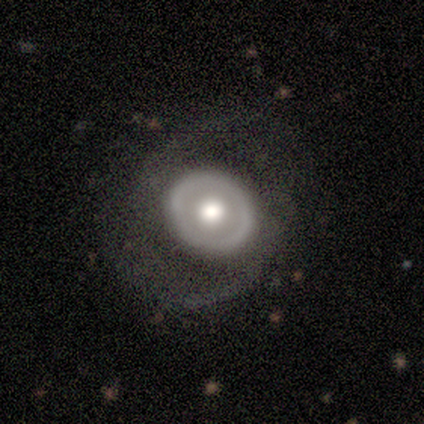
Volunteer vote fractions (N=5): Morphology: type=featured or disk (80%); edge-on=no (75%); bar=no (67%); spiral arms=yes (67%); winding=medium (50%, tied with loose); arm count=1 (50%, tied with 2); bulge=large (100%); merging=none (60%).